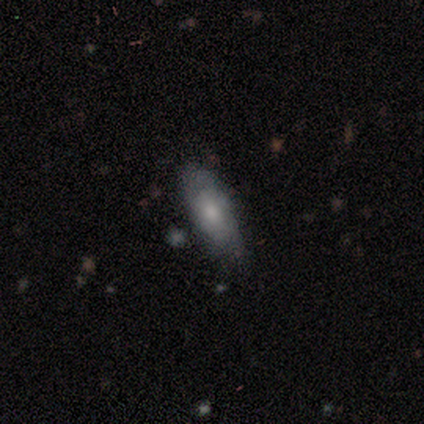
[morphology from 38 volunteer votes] Smooth or featured? smooth (55%)
How rounded? in between (67%)
Merging? none (67%)